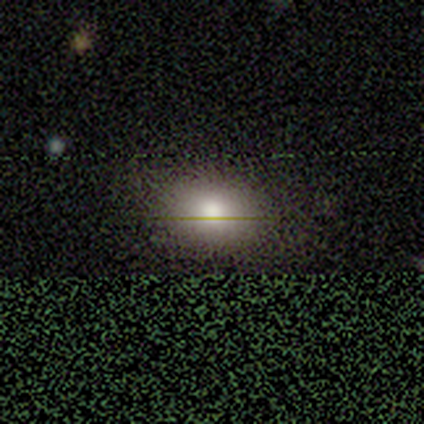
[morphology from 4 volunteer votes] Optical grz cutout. It shows a smooth galaxy with no disk features (100%) that is in between round and cigar-shaped (75%). Merging: none (100%).